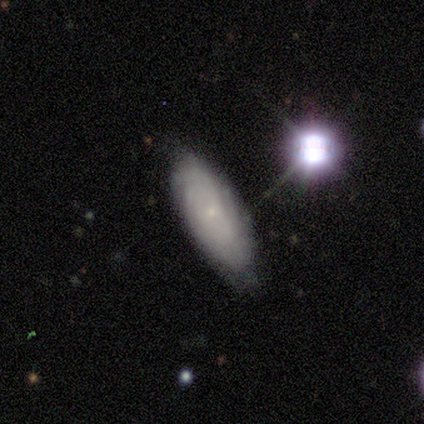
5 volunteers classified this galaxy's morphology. smooth-or-featured: featured or disk: 80% | smooth: 20% | star or artifact: 0%
  disk-edge-on: no: 75% | yes: 25%
    bar: no: 67% | weak: 33% | strong: 0%
    has-spiral-arms: yes: 67% | no: 33%
      spiral-winding: tight: 100% | medium: 0% | loose: 0%
      spiral-arm-count: can't tell: 100% | 1: 0% | 2: 0% | 3: 0% | 4: 0% | more than 4: 0%
    bulge-size: small: 100% | dominant: 0% | large: 0% | moderate: 0% | none: 0%
  merging: none: 80% | minor disturbance: 20% | major disturbance: 0% | merger: 0%